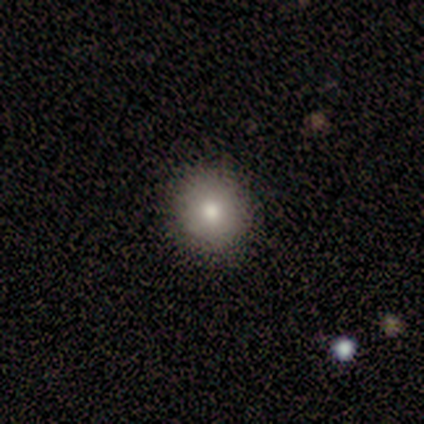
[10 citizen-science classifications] Q: Smooth or featured?
A: smooth (80%); runner-up: featured or disk (20%)
Q: How rounded?
A: round (100%)
Q: Merging?
A: none (100%)